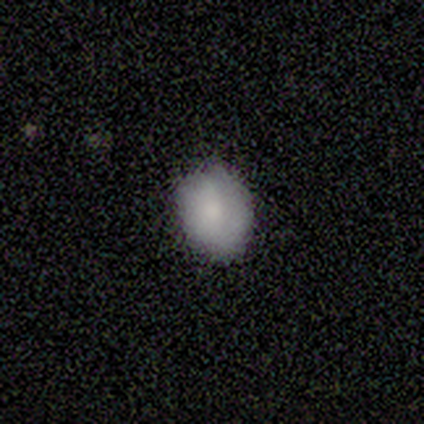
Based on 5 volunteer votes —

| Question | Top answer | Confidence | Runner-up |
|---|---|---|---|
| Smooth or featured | smooth | 100% | — |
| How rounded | round | 60% | in between (40%) |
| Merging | none | 80% | minor disturbance (20%) |